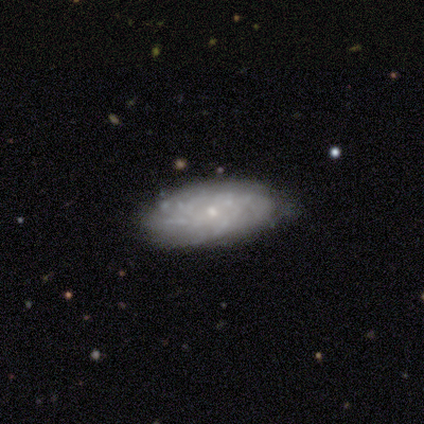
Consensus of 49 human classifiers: smooth-or-featured: featured or disk: 61% | smooth: 37% | star or artifact: 2%
  disk-edge-on: no: 93% | yes: 7%
    bar: no: 79% | weak: 21% | strong: 0%
    has-spiral-arms: yes: 68% | no: 32%
      spiral-winding: tight: 84% | medium: 16% | loose: 0%
      spiral-arm-count: can't tell: 68% | more than 4: 21% | 3: 5% | 4: 5% | 1: 0% | 2: 0%
    bulge-size: small: 79% | moderate: 18% | none: 4% | dominant: 0% | large: 0%
  merging: none: 73% | minor disturbance: 17% | major disturbance: 6% | merger: 4%